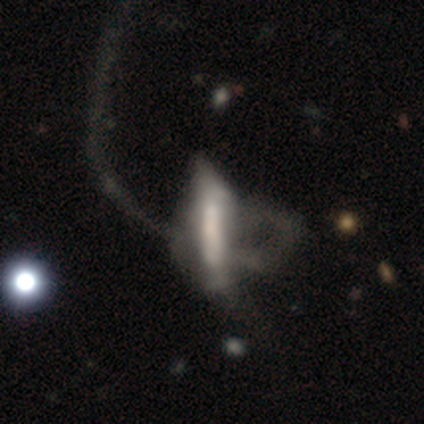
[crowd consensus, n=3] smooth_or_featured: smooth (p=0.67) [alt: featured or disk p=0.33]
how_rounded: cigar-shaped (p=1.00)
merging: major disturbance (p=0.67) [alt: none p=0.33]